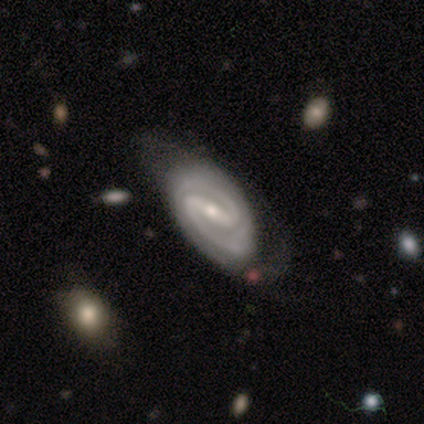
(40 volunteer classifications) Morphology: type=featured or disk (95%); edge-on=no (100%); bar=strong (79%); spiral arms=yes (100%); winding=tight (50%); arm count=2 (100%); bulge=small (74%); merging=none (44%).